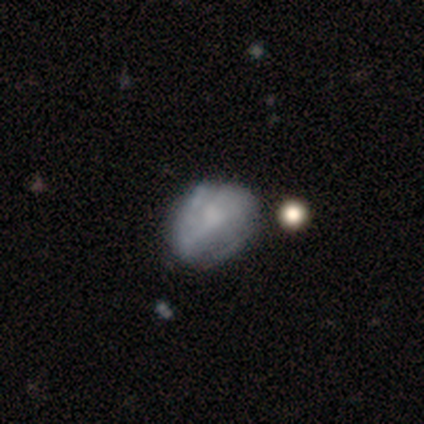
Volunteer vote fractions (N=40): Q: Smooth or featured?
A: featured or disk (55%); runner-up: smooth (45%)
Q: Edge-on disk?
A: no (95%); runner-up: yes (5%)
Q: Bar?
A: no (62%); runner-up: weak (33%)
Q: Spiral arms?
A: no (62%); runner-up: yes (38%)
Q: Bulge size?
A: none (52%); runner-up: moderate (33%)
Q: Merging?
A: none (28%); runner-up: minor disturbance (22%)